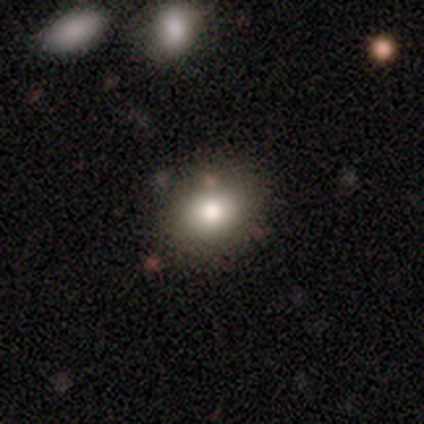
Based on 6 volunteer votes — smooth_or_featured: smooth (p=1.00)
how_rounded: in between (p=0.83) [alt: round p=0.17]
merging: none (p=1.00)